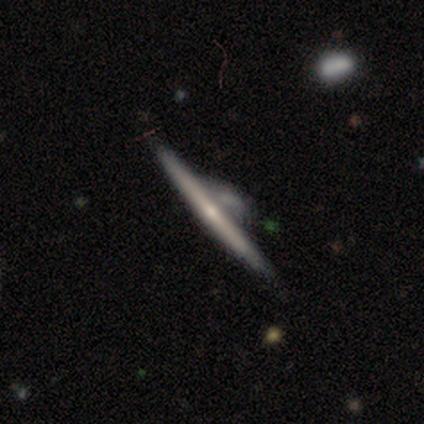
Volunteers were most divided on "merging": merger: 21%, none: 15%, major disturbance: 15%, minor disturbance: 12%. More confident: edge-on disk — yes (100%); smooth or featured — featured or disk (79%); edge-on bulge — rounded (53%).